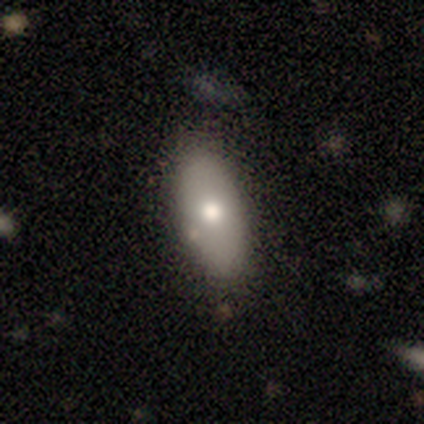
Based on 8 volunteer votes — Smooth or featured: smooth — 75% (featured or disk — 25%)
How rounded: in between — 67% (cigar-shaped — 33%)
Merging: none — 75% (minor disturbance — 25%)